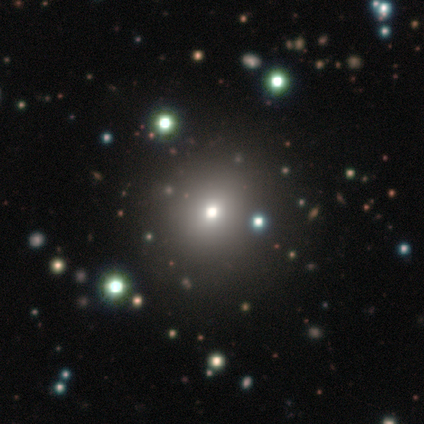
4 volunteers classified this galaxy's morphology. smooth_or_featured: smooth (p=0.50) [alt: featured or disk p=0.25]
how_rounded: round (p=1.00)
merging: none (p=1.00)